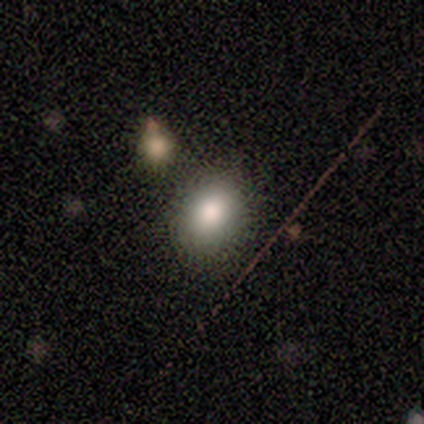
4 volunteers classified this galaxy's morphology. smooth_or_featured: smooth (p=0.50) [tied with: star or artifact p=0.50]
how_rounded: in between (p=1.00)
merging: none (p=1.00)